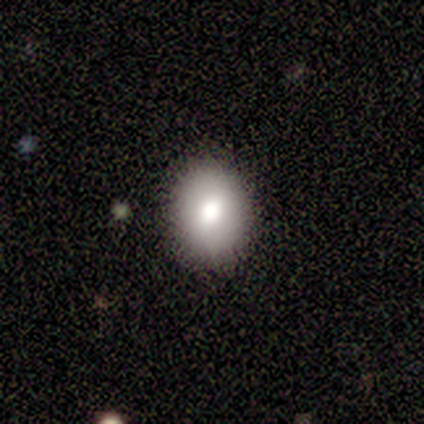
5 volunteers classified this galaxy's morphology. This is clearly a smooth galaxy (80%). How rounded: likely round (75%). Merging: clearly none (80%).